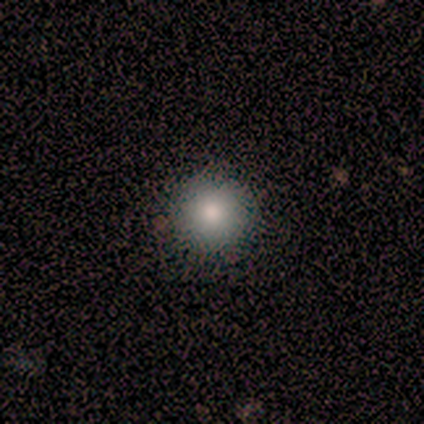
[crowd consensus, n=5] Smooth or featured? smooth (100%)
How rounded? round (100%)
Merging? none (100%)